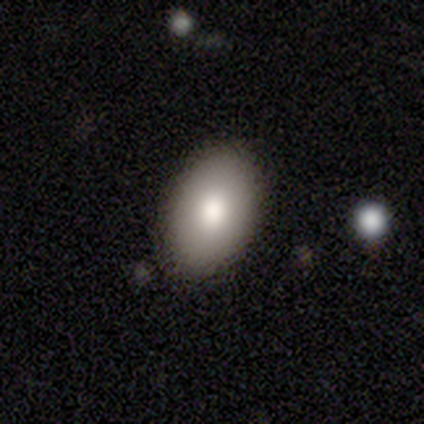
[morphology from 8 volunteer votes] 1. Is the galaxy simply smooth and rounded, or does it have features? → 88% smooth, 12% featured or disk, 0% star or artifact.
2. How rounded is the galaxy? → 100% in between, 0% round, 0% cigar-shaped.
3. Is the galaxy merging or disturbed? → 100% none, 0% minor disturbance, 0% major disturbance, 0% merger.